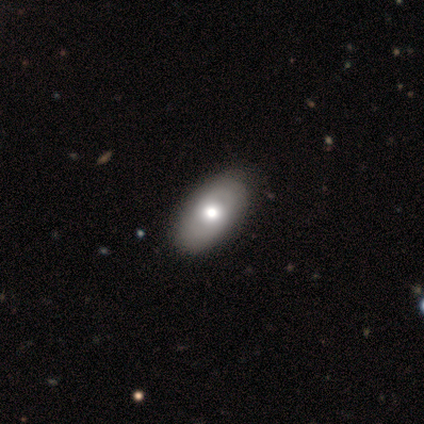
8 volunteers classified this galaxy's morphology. This appears to be a featured or disk galaxy (50%) with no bar (100%), no spiral arms (75%) and a moderate central bulge (75%). Merging: none (71%).